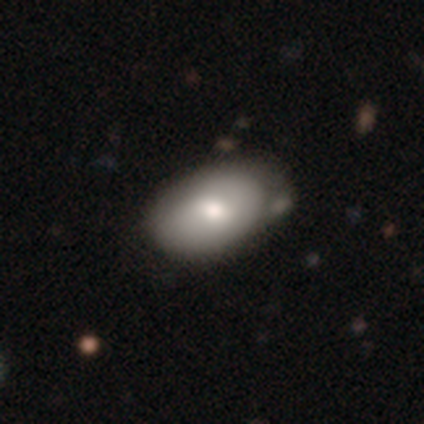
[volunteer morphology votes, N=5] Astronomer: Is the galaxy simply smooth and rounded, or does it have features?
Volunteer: smooth — 80%.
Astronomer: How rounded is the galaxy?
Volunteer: round — 50%, tied with in between at 50%.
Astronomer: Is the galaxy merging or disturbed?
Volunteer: none — 60% (runner-up: minor disturbance, 40%).